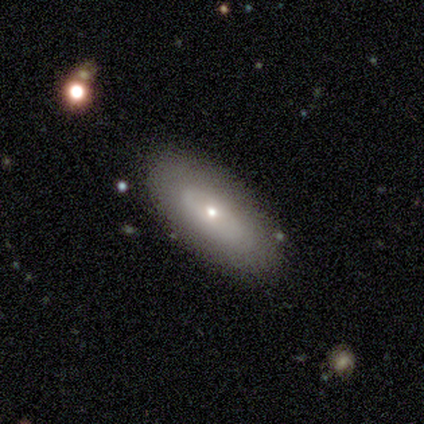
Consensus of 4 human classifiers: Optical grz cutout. It shows a featured or disk galaxy (75%) with no bar (100%), no spiral arms (67%) and a small central bulge (100%). Merging: none (75%).